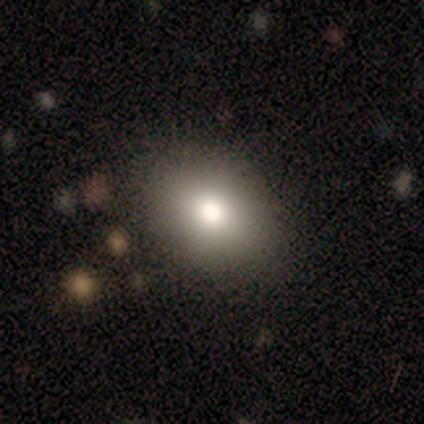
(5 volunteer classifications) Morphology: type=smooth (80%); roundness=in between (75%); merging=none (80%).